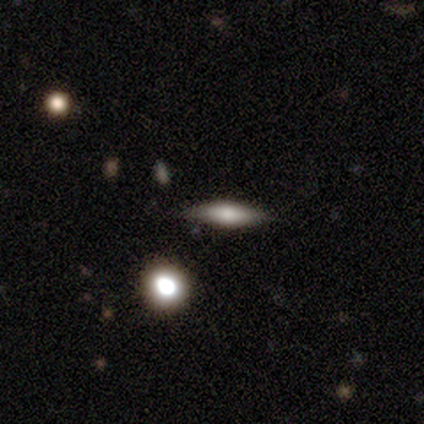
smooth-or-featured: featured or disk: 40% (tied) | star or artifact: 40% (tied) | smooth: 20%
  disk-edge-on: yes: 100% | no: 0%
    edge-on-bulge: rounded: 100% | boxy: 0% | none: 0%
  merging: none: 100% | minor disturbance: 0% | major disturbance: 0% | merger: 0%